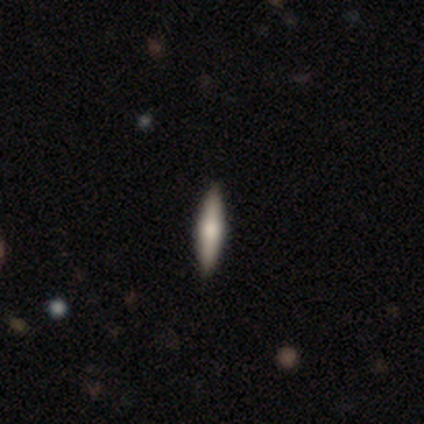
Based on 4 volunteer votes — A smooth galaxy with no disk features (50%, tied with featured or disk) that is cigar-shaped (100%).

Vote fractions:
- Smooth or featured? smooth: 50% (tied) / featured or disk: 50% (tied) / star or artifact: 0%
- How rounded? cigar-shaped: 100% / round: 0% / in between: 0%
- Merging? none: 100% / minor disturbance: 0% / major disturbance: 0% / merger: 0%